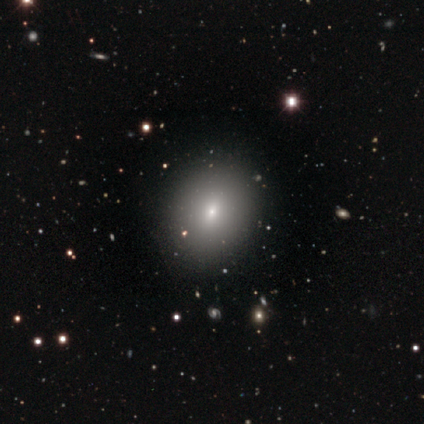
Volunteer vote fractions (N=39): A smooth galaxy with no disk features (64%) that is in between round and cigar-shaped (60%). Merging: none (86%).